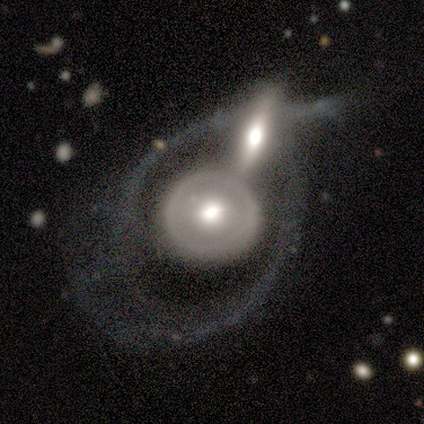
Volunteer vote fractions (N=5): Overall: featured or disk (100%). Edge-on disk: no (100%). Bar: no (80%). Spiral arms: no (80%). Bulge size: moderate (60%; dominant 20%). Merging: merger (60%; none 40%).